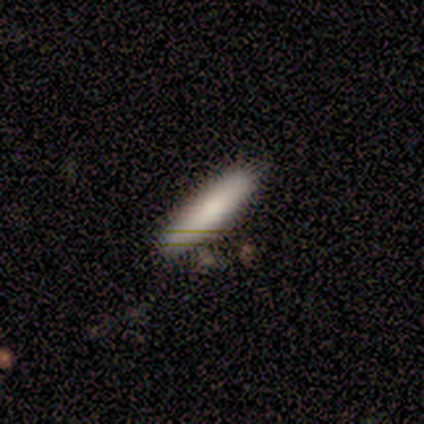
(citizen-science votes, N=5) This is clearly a smooth galaxy (100%). How rounded: clearly cigar-shaped (80%). Merging: likely none (60%).